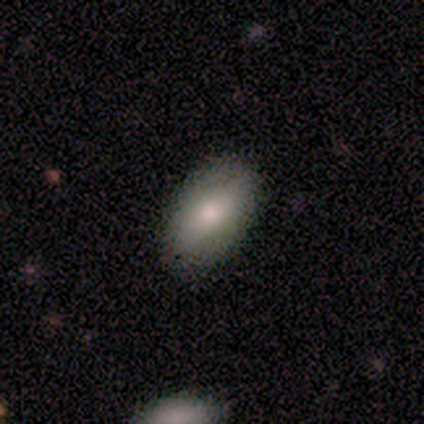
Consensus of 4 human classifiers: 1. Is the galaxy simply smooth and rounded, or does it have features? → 75% smooth, 25% featured or disk, 0% star or artifact.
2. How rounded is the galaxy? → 100% in between, 0% round, 0% cigar-shaped.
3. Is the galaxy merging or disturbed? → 100% none, 0% minor disturbance, 0% major disturbance, 0% merger.